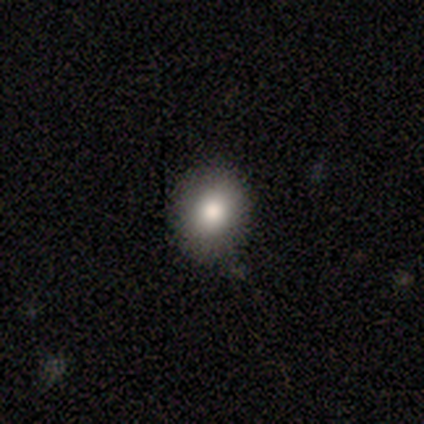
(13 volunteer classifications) Volunteers were most divided on "how rounded": round: 73%, in between: 27%, cigar-shaped: 0%. More confident: smooth or featured — smooth (85%); merging — none (83%).